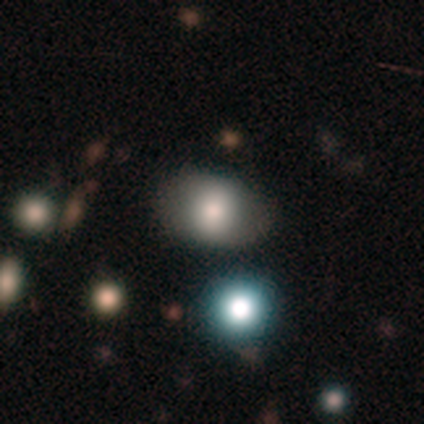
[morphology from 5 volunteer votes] A smooth galaxy with no disk features (60%) that is in between round and cigar-shaped (100%). Merging: none (80%).